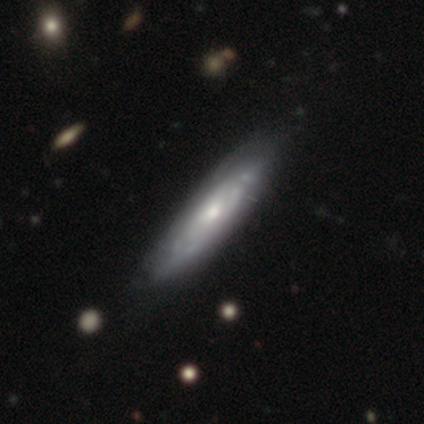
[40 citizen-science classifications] smooth-or-featured: featured or disk: 80% | smooth: 20% | star or artifact: 0%
  disk-edge-on: no: 59% | yes: 41%
    bar: no: 89% | strong: 5% | weak: 5%
    has-spiral-arms: yes: 68% | no: 32%
      spiral-winding: tight: 69% | medium: 23% | loose: 8%
      spiral-arm-count: can't tell: 77% | 2: 8% | 3: 8% | more than 4: 8% | 1: 0% | 4: 0%
    bulge-size: small: 47% | moderate: 42% | large: 11% | dominant: 0% | none: 0%
  merging: none: 42% | minor disturbance: 12% | merger: 8% | major disturbance: 0%